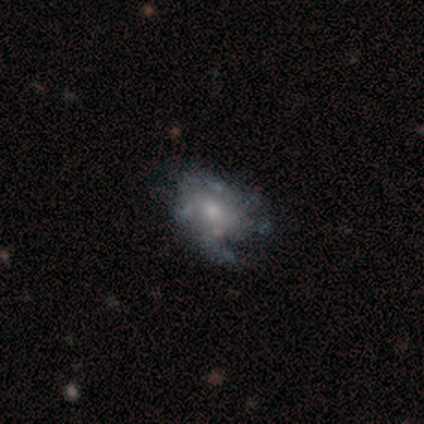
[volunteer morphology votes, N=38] Volunteers were most divided on "bulge size": moderate: 52%, small: 45%, none: 3%, dominant: 0%, large: 0%. Remaining: edge-on disk — no (100%); bar — no (90%); smooth or featured — featured or disk (76%); spiral arms — no (66%); merging — none (38%).